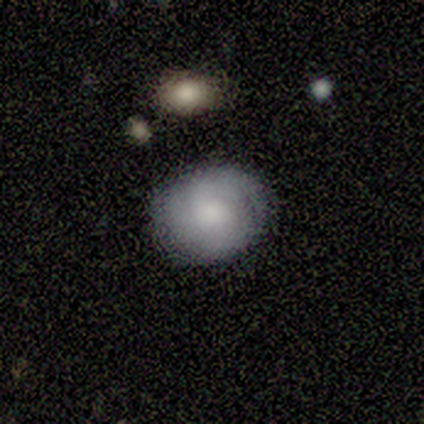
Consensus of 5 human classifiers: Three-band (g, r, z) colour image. It shows a smooth galaxy with no disk features (60%) that is round (67%). Merging: none (80%).